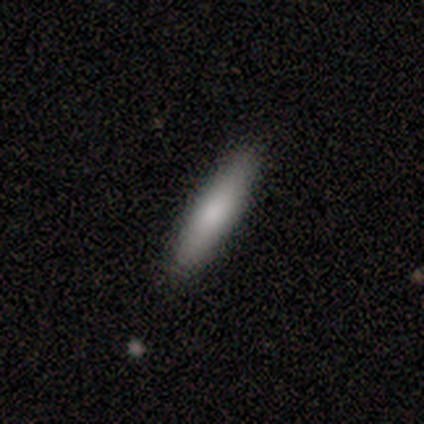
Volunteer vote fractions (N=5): A smooth galaxy with no disk features (100%) that is cigar-shaped (80%). Merging: none (100%).